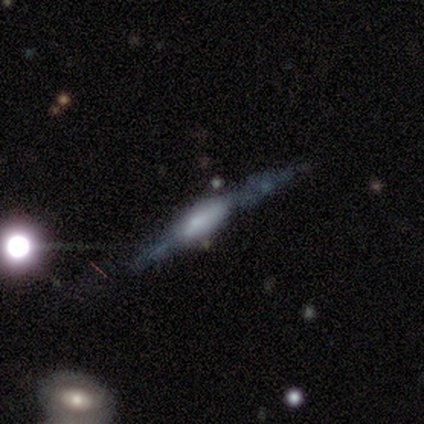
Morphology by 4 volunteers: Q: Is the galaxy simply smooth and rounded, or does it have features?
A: featured or disk — 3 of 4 (75%).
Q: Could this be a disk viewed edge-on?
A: yes — 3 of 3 (100%).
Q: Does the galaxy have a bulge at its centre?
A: rounded — 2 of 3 (67%).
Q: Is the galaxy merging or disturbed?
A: none — 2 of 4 (50%, tied with minor disturbance).